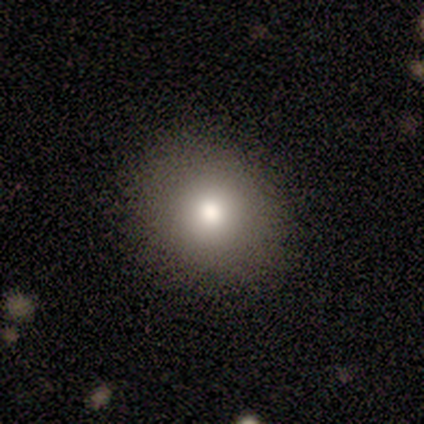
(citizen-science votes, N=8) Volunteers were most divided on "how rounded": round: 75%, in between: 25%, cigar-shaped: 0%. More confident: smooth or featured — smooth (100%); merging — none (75%).